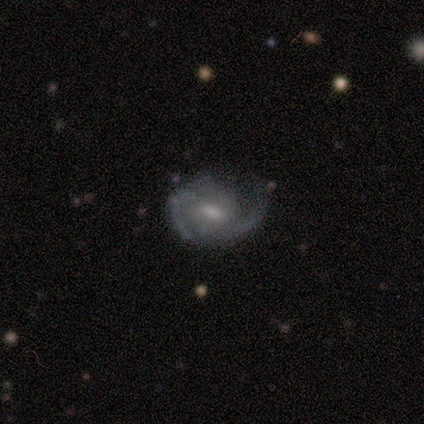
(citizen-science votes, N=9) Overall: featured or disk (100%). Edge-on disk: no (100%). Bar: no (56%; weak 33%). Spiral arms: yes (89%). Spiral arm count: 2 (75%). Spiral winding: medium (75%). Bulge size: small (56%; moderate 33%). Merging: major disturbance (44%; none 33%).